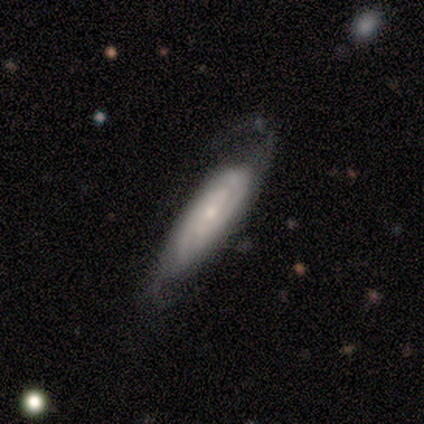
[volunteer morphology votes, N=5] Q: Smooth or featured?
A: featured or disk (100%)
Q: Edge-on disk?
A: no (100%)
Q: Bar?
A: no (80%); runner-up: weak (20%)
Q: Spiral arms?
A: yes (80%); runner-up: no (20%)
Q: Spiral winding?
A: tight (75%); runner-up: medium (25%)
Q: Spiral arm count?
A: 2 (75%); runner-up: can't tell (25%)
Q: Bulge size?
A: small (60%); runner-up: dominant (20%)
Q: Merging?
A: none (80%); runner-up: minor disturbance (20%)